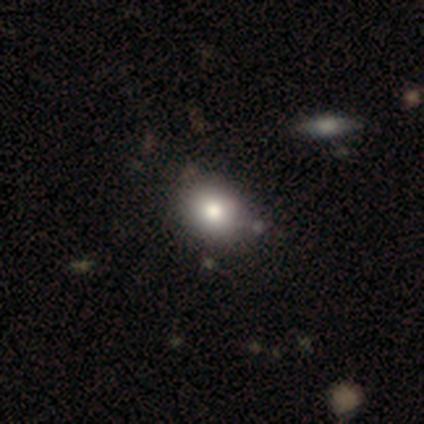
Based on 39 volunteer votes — Volunteers were most divided on "how rounded": in between: 52%, round: 48%, cigar-shaped: 0%. More confident: smooth or featured — smooth (79%); merging — none (64%).